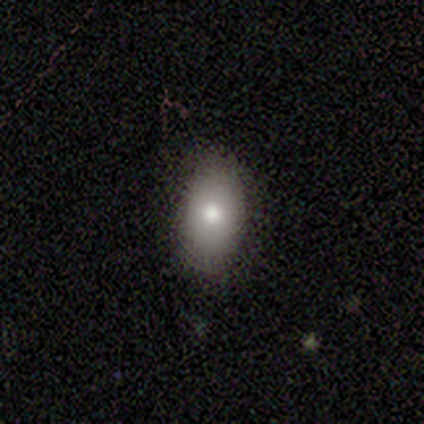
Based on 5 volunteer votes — Volunteers were most divided on "smooth or featured": smooth: 60%, featured or disk: 40%, star or artifact: 0%. More confident: how rounded — in between (100%); merging — none (100%).